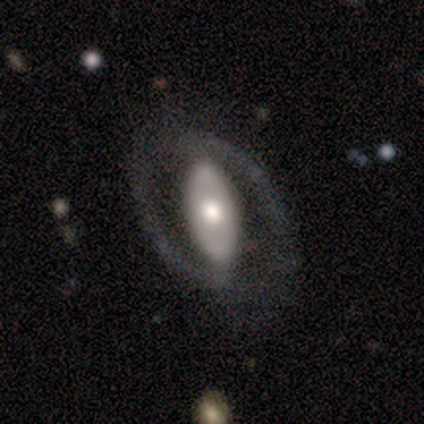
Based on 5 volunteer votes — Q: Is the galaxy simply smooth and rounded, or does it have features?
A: featured or disk — 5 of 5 (100%).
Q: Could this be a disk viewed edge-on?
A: no — 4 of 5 (80%).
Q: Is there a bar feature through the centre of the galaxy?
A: weak — 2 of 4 (50%).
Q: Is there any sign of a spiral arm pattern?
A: yes — 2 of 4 (50%, tied with no).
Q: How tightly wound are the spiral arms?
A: tight — 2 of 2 (100%).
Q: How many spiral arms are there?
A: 1 — 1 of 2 (50%, tied with 2).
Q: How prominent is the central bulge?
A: dominant — 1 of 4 (25%, tied with large, moderate and small).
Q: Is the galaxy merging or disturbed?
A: none — 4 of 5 (80%).